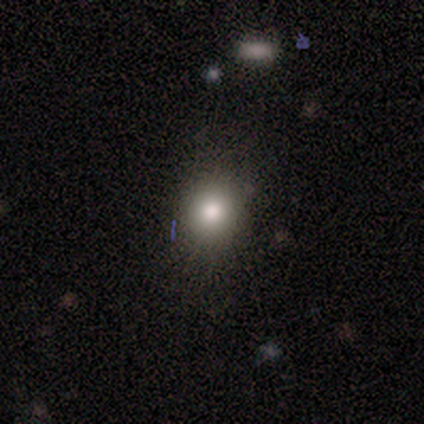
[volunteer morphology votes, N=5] smooth_or_featured: smooth (p=0.60) [alt: featured or disk p=0.40]
how_rounded: round (p=0.67) [alt: in between p=0.33]
merging: none (p=1.00)